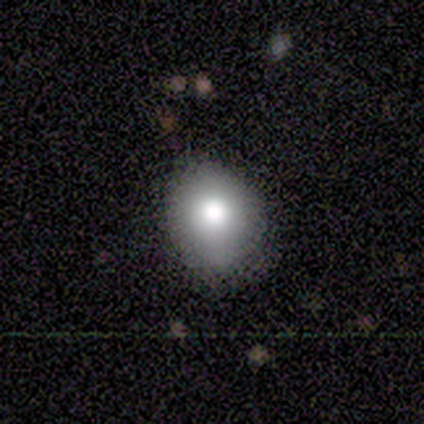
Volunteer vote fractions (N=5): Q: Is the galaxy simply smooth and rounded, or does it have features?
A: smooth — 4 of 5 (80%).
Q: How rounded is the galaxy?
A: round — 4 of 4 (100%).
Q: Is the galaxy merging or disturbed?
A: none — 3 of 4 (75%).